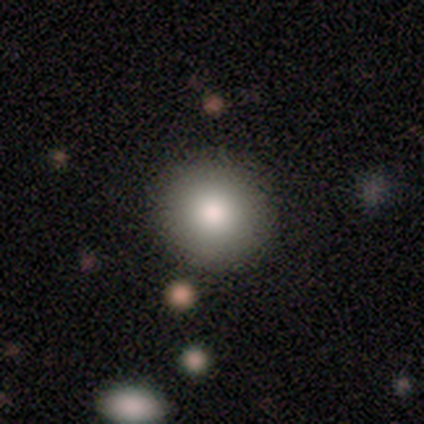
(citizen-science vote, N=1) Smooth or featured: smooth — 100%
How rounded: round — 100%
Merging: none — 100%